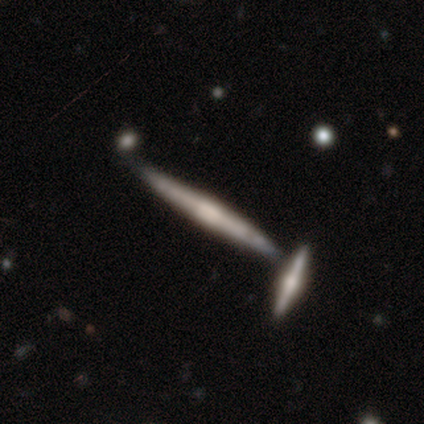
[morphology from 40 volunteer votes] featured or disk 72%, smooth 22%, star or artifact 5%. Down the decision tree: edge-on disk — yes (97%); edge-on bulge — rounded (50%); merging — none (55%).